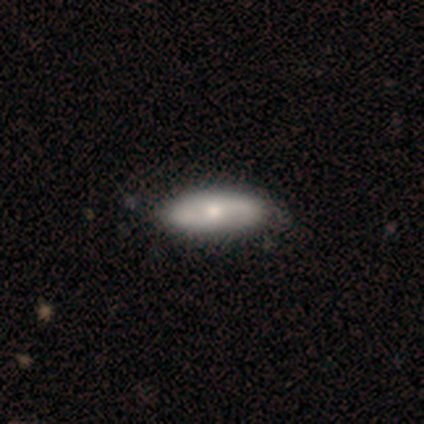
Volunteers were most divided on "smooth or featured": smooth: 75%, featured or disk: 25%, star or artifact: 0%. More confident: how rounded — in between (100%); merging — none (100%).